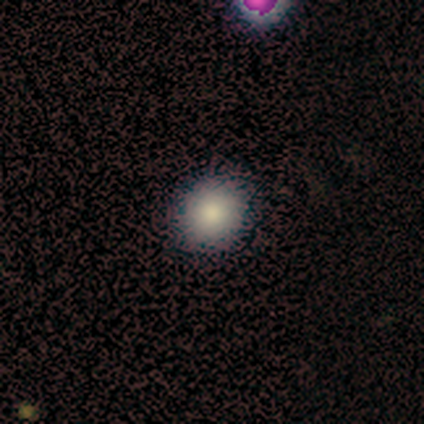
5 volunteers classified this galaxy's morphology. Smooth or featured? smooth (100%)
How rounded? round (80%)
Merging? none (100%)